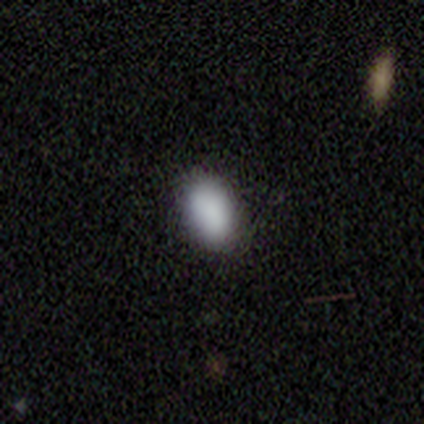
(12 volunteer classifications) This appears to be a smooth galaxy with no disk features (92%) that is in between round and cigar-shaped (82%). Merging: none (100%).